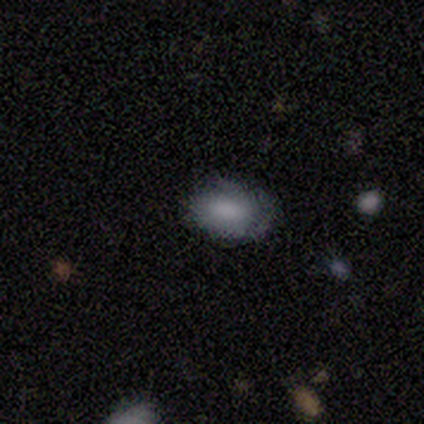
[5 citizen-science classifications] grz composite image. It shows a smooth galaxy with no disk features (100%) that is in between round and cigar-shaped (100%). Merging: none (60%).